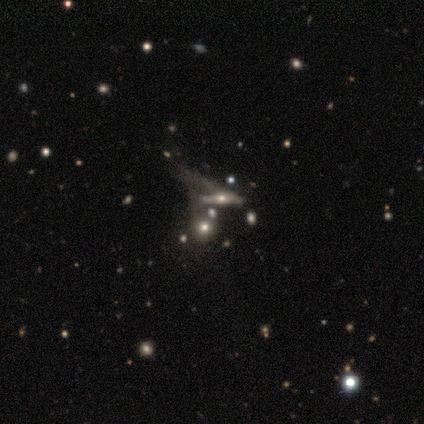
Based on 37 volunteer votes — featured or disk 59%, smooth 27%, star or artifact 14%. Down the decision tree: edge-on disk — yes (64%); edge-on bulge — rounded (86%); merging — merger (44%).